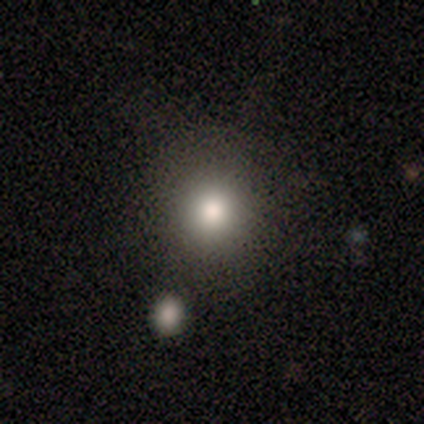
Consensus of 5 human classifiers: This is likely a smooth galaxy (60%). How rounded: clearly round (100%). Merging: clearly none (100%).